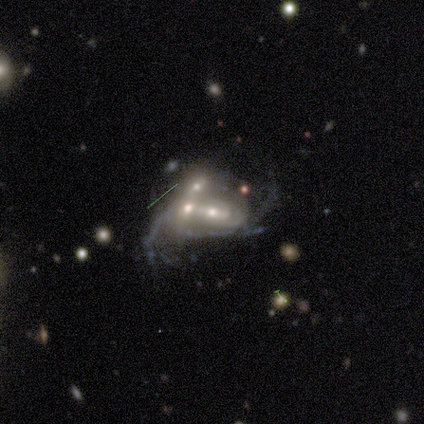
Smooth or featured? featured or disk (82%)
Edge-on disk? no (100%)
Bar? no (53%)
Spiral arms? yes (59%)
Spiral winding? loose (53%)
Spiral arm count? can't tell (53%)
Bulge size? moderate (62%)
Merging? merger (76%)